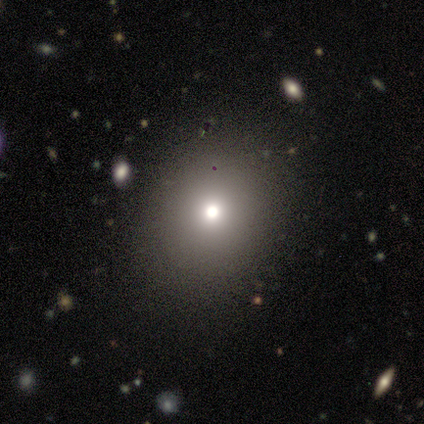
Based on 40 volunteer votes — Smooth or featured: smooth — 88% (star or artifact — 10%)
How rounded: round — 77% (in between — 23%)
Merging: none — 89% (minor disturbance — 8%)